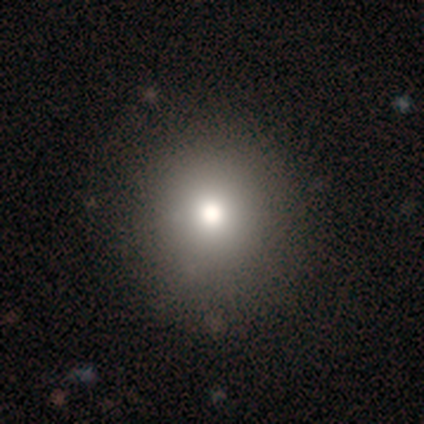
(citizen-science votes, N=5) This appears to be a smooth galaxy with no disk features (40%, tied with star or artifact) that is round (100%). Merging: none (100%).